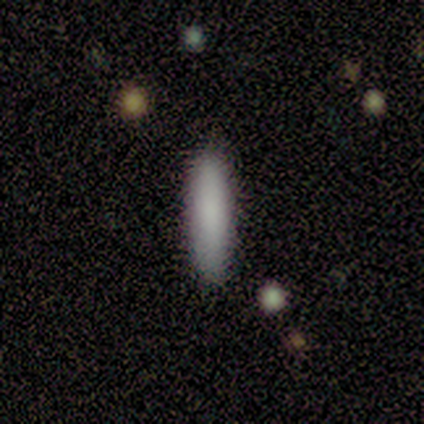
A smooth galaxy with no disk features (79%) that is cigar-shaped (82%). Merging: none (92%).